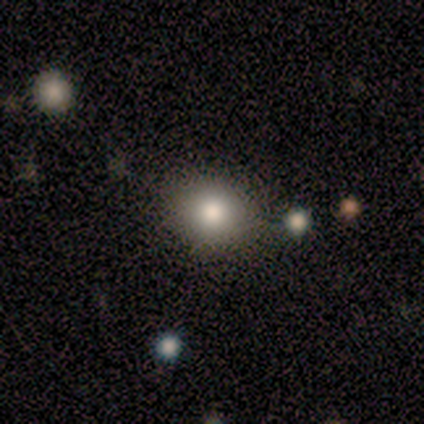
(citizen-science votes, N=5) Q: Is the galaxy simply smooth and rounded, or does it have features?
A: smooth — 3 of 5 (60%).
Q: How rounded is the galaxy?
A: in between — 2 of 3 (67%).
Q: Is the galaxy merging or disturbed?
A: none — 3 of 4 (75%).